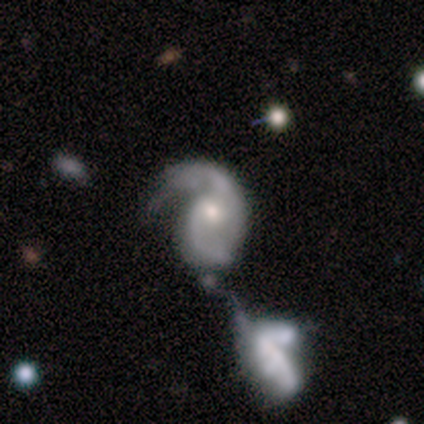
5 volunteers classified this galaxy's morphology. Q: Smooth or featured?
A: featured or disk (80%); runner-up: star or artifact (20%)
Q: Edge-on disk?
A: no (100%)
Q: Bar?
A: no (100%)
Q: Spiral arms?
A: yes (100%)
Q: Spiral winding?
A: medium (75%); runner-up: loose (25%)
Q: Spiral arm count?
A: 2 (100%)
Q: Bulge size?
A: moderate (75%); runner-up: small (25%)
Q: Merging?
A: merger (50%); runner-up: none (25%)